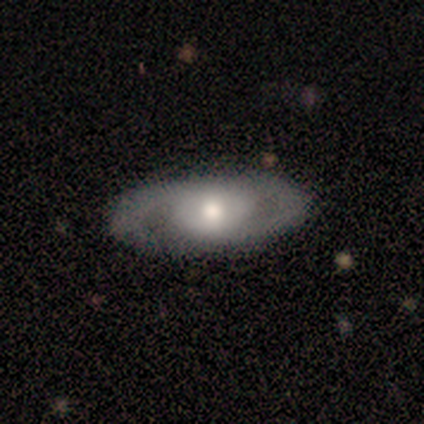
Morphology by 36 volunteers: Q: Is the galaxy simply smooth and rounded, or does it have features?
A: featured or disk — 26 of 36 (72%).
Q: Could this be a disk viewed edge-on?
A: no — 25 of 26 (96%).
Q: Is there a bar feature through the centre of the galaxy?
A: no — 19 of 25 (76%).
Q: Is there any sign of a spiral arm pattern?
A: yes — 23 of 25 (92%).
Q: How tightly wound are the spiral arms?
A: tight — 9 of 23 (39%).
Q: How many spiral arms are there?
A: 2 — 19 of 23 (83%).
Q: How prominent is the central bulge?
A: moderate — 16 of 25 (64%).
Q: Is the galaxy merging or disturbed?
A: none — 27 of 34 (79%).